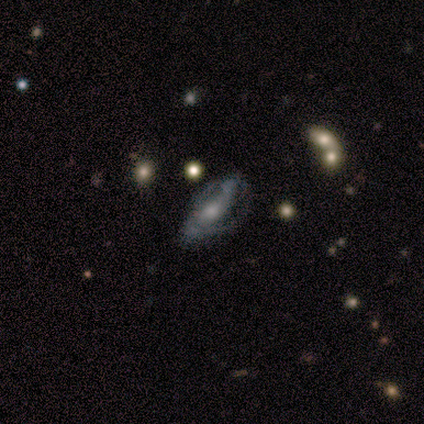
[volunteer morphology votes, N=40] Volunteers were most divided on "merging": major disturbance: 20%, none: 14%, merger: 14%, minor disturbance: 11%. Remaining: spiral arms — yes (79%); smooth or featured — featured or disk (78%); edge-on disk — no (77%); spiral arm count — 2 (58%); bar — no (50%); bulge size — moderate (50%); spiral winding — tight (42%).